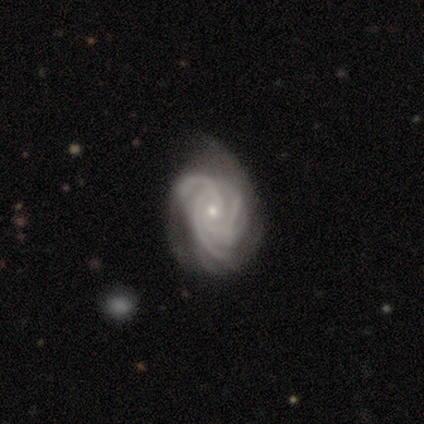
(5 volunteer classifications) Smooth or featured? featured or disk (100%)
Edge-on disk? no (100%)
Bar? no (60%)
Spiral arms? yes (100%)
Spiral winding? tight (100%)
Spiral arm count? 4 (60%)
Bulge size? small (80%)
Merging? minor disturbance (40%, tied with major disturbance)